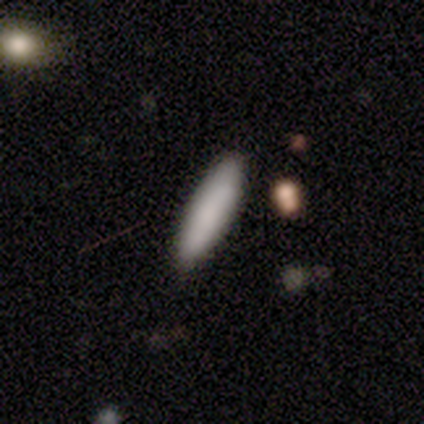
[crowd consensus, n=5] Volunteers were most divided on "how rounded": cigar-shaped: 80%, in between: 20%, round: 0%. More confident: smooth or featured — smooth (100%); merging — none (100%).